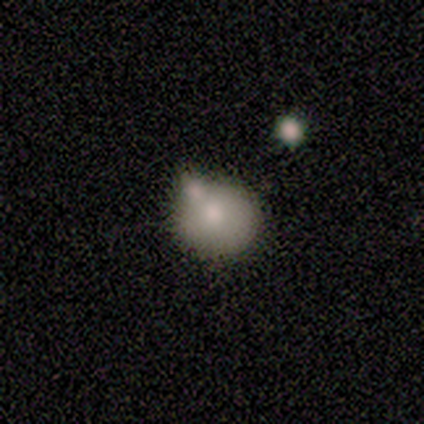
Morphology: type=smooth (100%); roundness=round (100%); merging=none (60%).